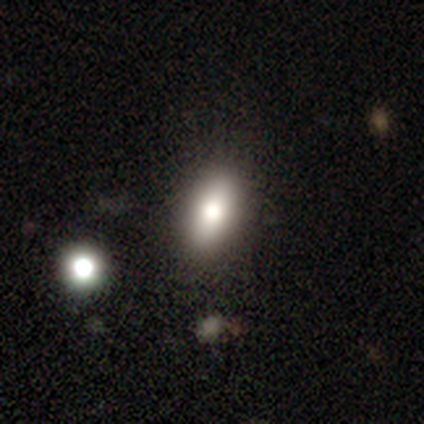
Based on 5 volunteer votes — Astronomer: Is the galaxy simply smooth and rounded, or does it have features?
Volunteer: smooth — 60%.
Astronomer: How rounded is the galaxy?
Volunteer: in between — 100%.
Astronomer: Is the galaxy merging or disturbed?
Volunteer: none — 75%.